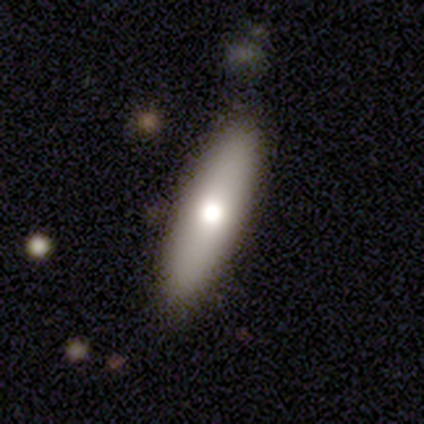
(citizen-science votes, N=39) This is likely a smooth galaxy (67%). How rounded: likely cigar-shaped (62%). Merging: likely none (78%).